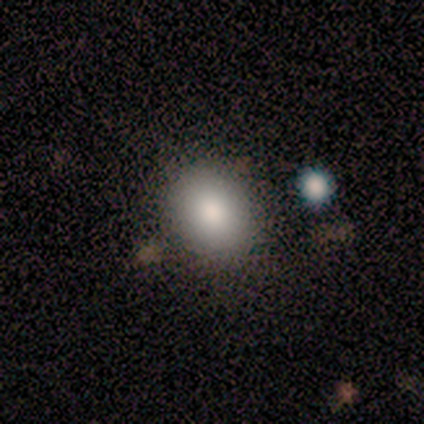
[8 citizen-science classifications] Smooth or featured? 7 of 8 (88%) said smooth. How rounded? 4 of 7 (57%) said in between. Merging? 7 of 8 (88%) said none.